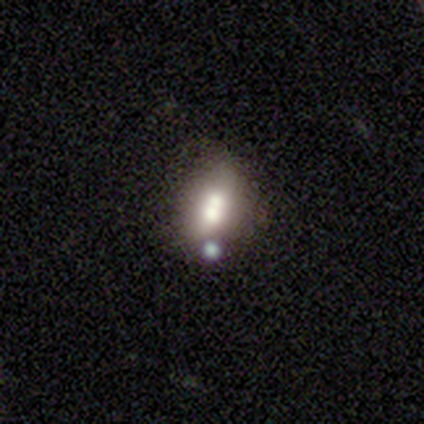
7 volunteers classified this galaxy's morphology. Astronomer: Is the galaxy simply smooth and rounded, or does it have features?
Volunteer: smooth — 57% (runner-up: featured or disk, 43%).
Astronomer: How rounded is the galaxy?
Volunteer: round — 50%, tied with in between at 50%.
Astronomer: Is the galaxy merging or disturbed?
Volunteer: merger — 57%.